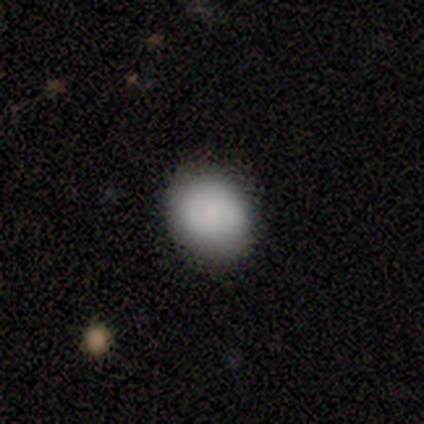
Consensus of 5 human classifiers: smooth_or_featured: smooth (p=0.80) [alt: featured or disk p=0.20]
how_rounded: round (p=0.50) [tied with: in between p=0.50]
merging: none (p=0.80) [alt: minor disturbance p=0.20]